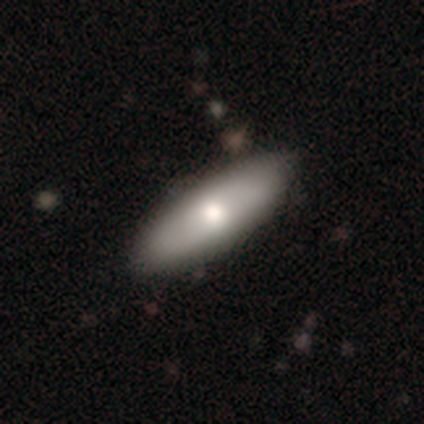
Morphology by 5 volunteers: Smooth or featured?
  - smooth: 100% *
  - featured or disk: 0%
  - star or artifact: 0%
How rounded?
  - in between: 80% *
  - cigar-shaped: 20%
  - round: 0%
Merging?
  - none: 80% *
  - minor disturbance: 20%
  - major disturbance: 0%
  - merger: 0%